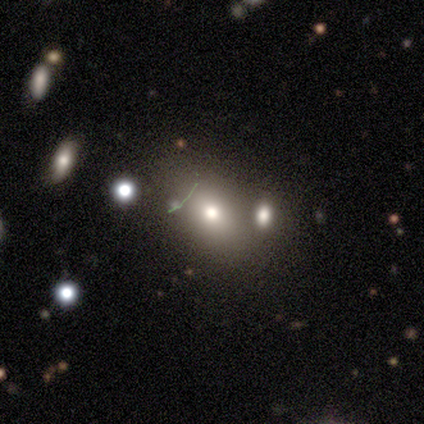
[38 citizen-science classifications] Overall: smooth (74%). How rounded: in between (82%). Merging: none (61%).